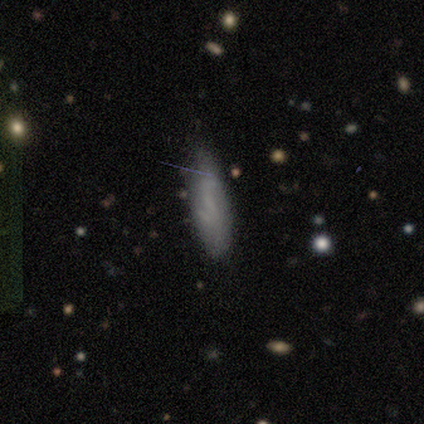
smooth-or-featured: smooth: 58% | featured or disk: 42% | star or artifact: 0%
  how-rounded: cigar-shaped: 71% | in between: 29% | round: 0%
  merging: none: 75% | minor disturbance: 25% | major disturbance: 0% | merger: 0%